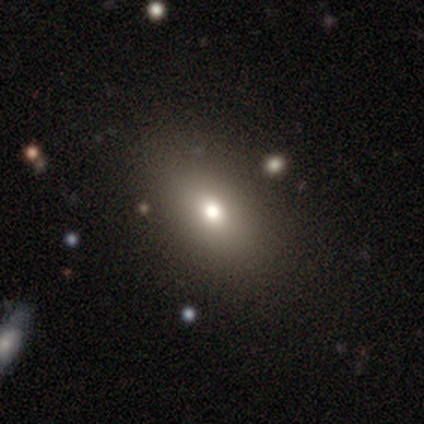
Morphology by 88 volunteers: Smooth or featured?
  - smooth: 68% *
  - star or artifact: 25%
  - featured or disk: 7%
How rounded?
  - in between: 87% *
  - round: 12%
  - cigar-shaped: 2%
Merging?
  - none: 86% *
  - minor disturbance: 8%
  - major disturbance: 6%
  - merger: 0%